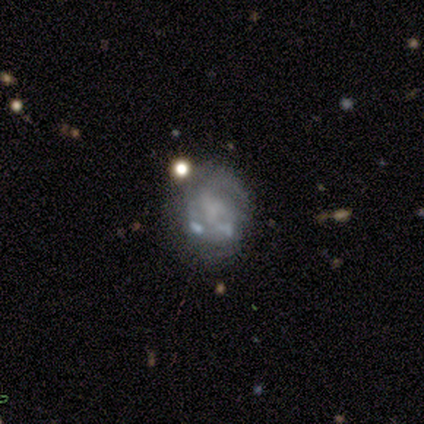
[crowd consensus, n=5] smooth-or-featured: featured or disk: 60% | smooth: 20% | star or artifact: 20%
  disk-edge-on: no: 100% | yes: 0%
    bar: no: 100% | strong: 0% | weak: 0%
    has-spiral-arms: no: 67% | yes: 33%
    bulge-size: moderate: 67% | none: 33% | dominant: 0% | large: 0% | small: 0%
  merging: minor disturbance: 75% | major disturbance: 25% | none: 0% | merger: 0%